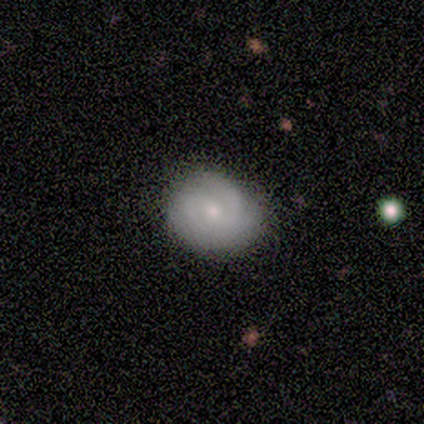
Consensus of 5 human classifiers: smooth-or-featured: smooth: 60% | featured or disk: 40% | star or artifact: 0%
  how-rounded: round: 100% | in between: 0% | cigar-shaped: 0%
  merging: none: 80% | minor disturbance: 20% | major disturbance: 0% | merger: 0%